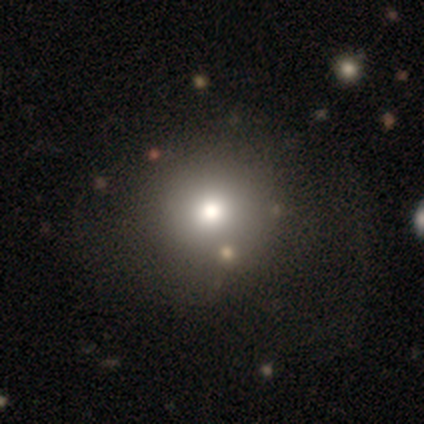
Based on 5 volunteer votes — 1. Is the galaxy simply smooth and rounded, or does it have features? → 80% smooth, 20% star or artifact, 0% featured or disk.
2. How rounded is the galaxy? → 75% round, 25% in between, 0% cigar-shaped.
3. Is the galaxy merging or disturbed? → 75% none, 25% major disturbance, 0% minor disturbance, 0% merger.